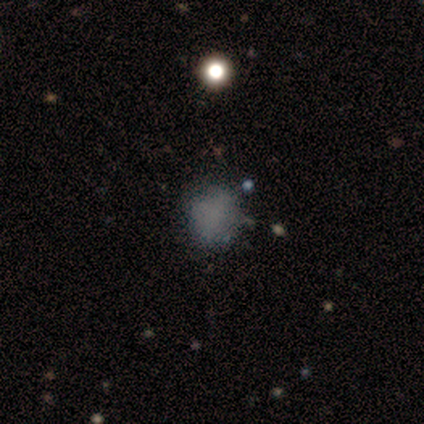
This is likely a smooth galaxy (60%). How rounded: clearly round (100%). Merging: likely none (75%).